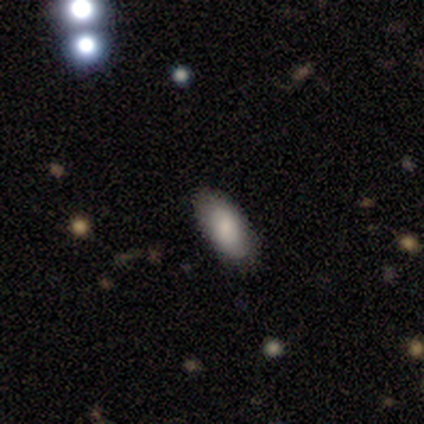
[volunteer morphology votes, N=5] Smooth or featured: smooth — 60% (featured or disk — 40%)
How rounded: in between — 100%
Merging: none — 80% (minor disturbance — 20%)